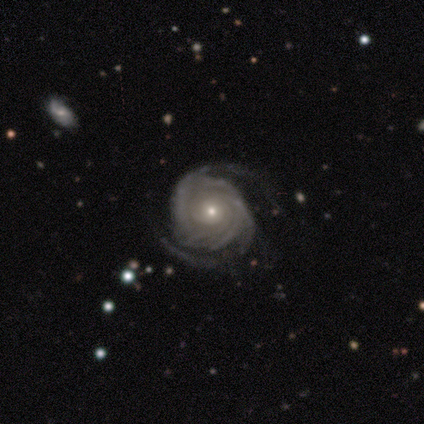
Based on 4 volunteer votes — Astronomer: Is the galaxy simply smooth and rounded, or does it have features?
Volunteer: featured or disk — 100%.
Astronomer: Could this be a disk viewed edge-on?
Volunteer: no — 100%.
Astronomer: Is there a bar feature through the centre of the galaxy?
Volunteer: no — 75%.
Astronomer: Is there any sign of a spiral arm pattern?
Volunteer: yes — 100%.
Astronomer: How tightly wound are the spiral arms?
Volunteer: tight — 50%, tied with medium at 50%.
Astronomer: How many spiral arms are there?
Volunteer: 2 — 50%.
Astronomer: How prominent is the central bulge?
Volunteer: moderate — 75%.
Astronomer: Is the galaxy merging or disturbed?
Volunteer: none — 50%.